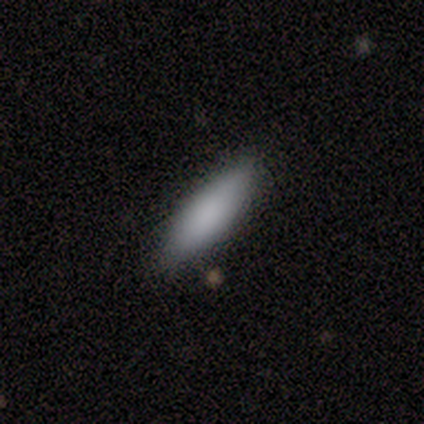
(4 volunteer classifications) A smooth galaxy with no disk features (75%) that is in between round and cigar-shaped (67%). Merging: none (75%).